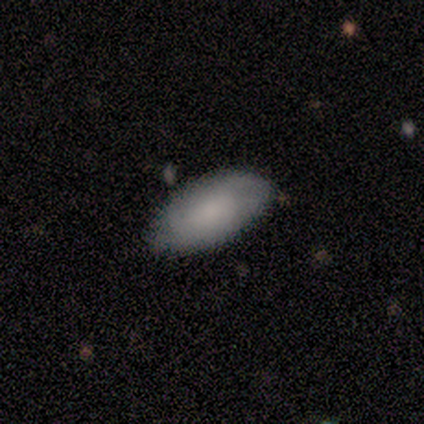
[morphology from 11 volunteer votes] smooth-or-featured: smooth: 73% | featured or disk: 27% | star or artifact: 0%
  how-rounded: in between: 75% | round: 12% | cigar-shaped: 12%
  merging: none: 91% | minor disturbance: 9% | major disturbance: 0% | merger: 0%